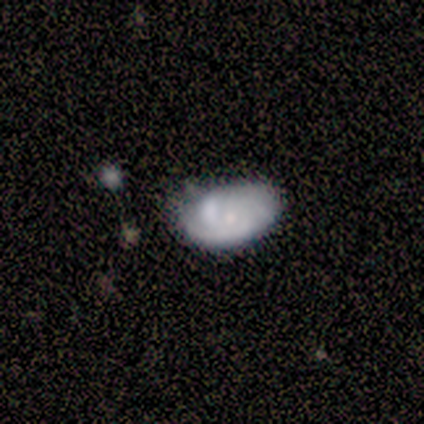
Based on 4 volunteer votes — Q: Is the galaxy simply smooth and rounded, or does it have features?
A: smooth — 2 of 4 (50%, tied with featured or disk).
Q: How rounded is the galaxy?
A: in between — 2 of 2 (100%).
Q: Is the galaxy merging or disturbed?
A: none — 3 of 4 (75%).